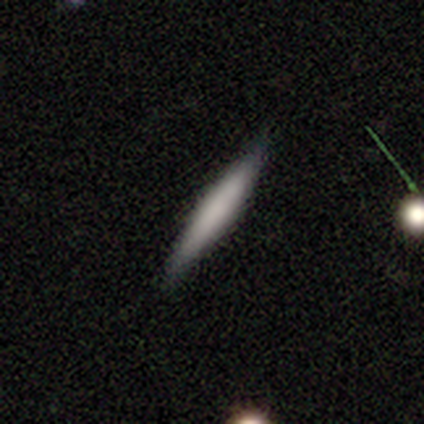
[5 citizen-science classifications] Overall: smooth (100%). How rounded: cigar-shaped (100%). Merging: none (100%).